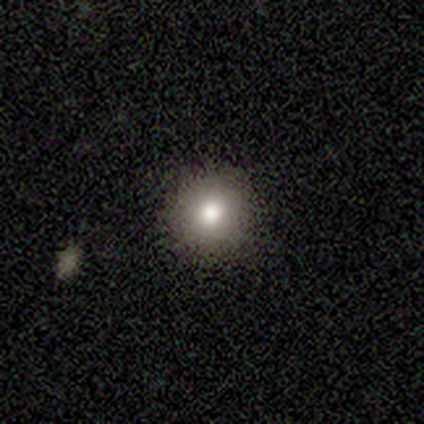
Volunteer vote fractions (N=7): Overall: smooth (86%). How rounded: round (100%). Merging: none (100%).